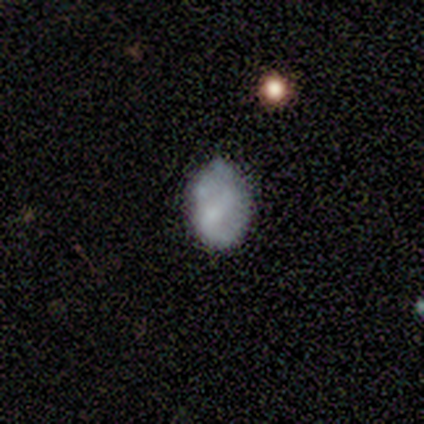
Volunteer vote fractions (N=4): smooth-or-featured: smooth: 75% | featured or disk: 25% | star or artifact: 0%
  how-rounded: round: 33% (tied) | in between: 33% (tied) | cigar-shaped: 33% (tied)
  merging: minor disturbance: 50% | none: 25% | major disturbance: 25% | merger: 0%